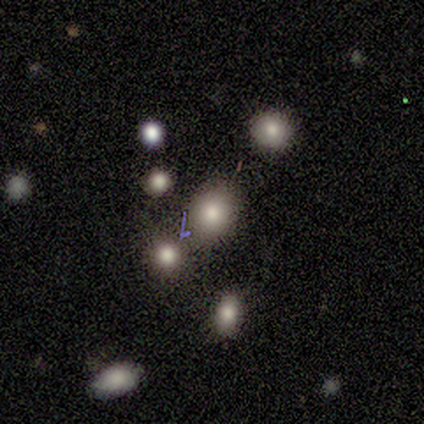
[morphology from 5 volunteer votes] Smooth or featured? smooth (60%)
How rounded? round (100%)
Merging? none (67%)